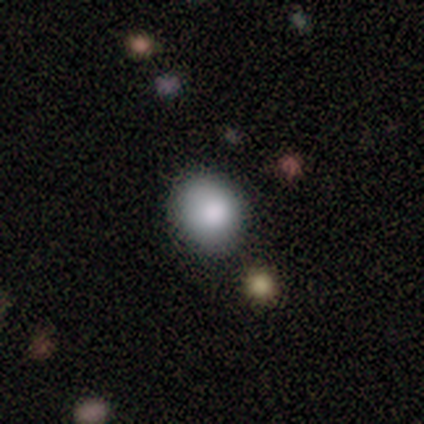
Smooth or featured? smooth (83%)
How rounded? round (67%)
Merging? none (75%)